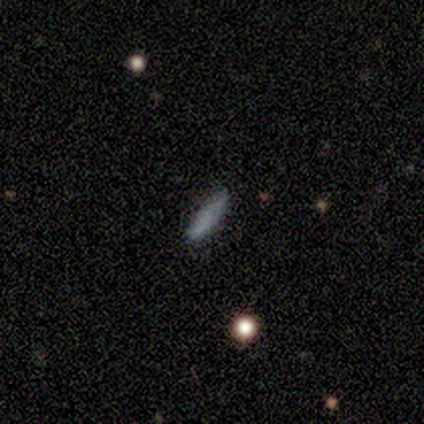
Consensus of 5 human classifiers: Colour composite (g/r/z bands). It shows a smooth galaxy with no disk features (80%) that is cigar-shaped (100%). Merging: none (75%).